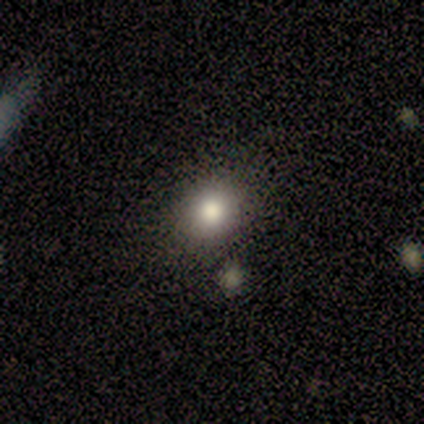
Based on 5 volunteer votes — Q: Smooth or featured?
A: smooth (100%)
Q: How rounded?
A: round (60%); runner-up: in between (20%)
Q: Merging?
A: none (60%); runner-up: minor disturbance (40%)